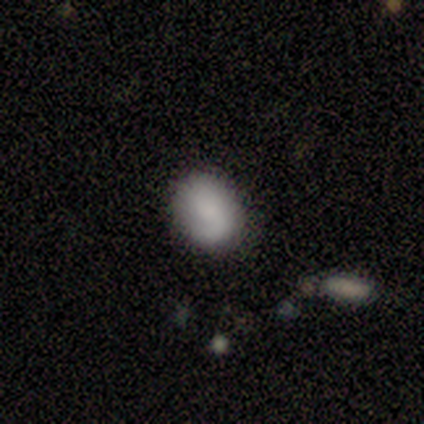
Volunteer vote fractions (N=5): Smooth or featured? 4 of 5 (80%) said smooth. How rounded? 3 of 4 (75%) said in between. Merging? 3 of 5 (60%) said none.